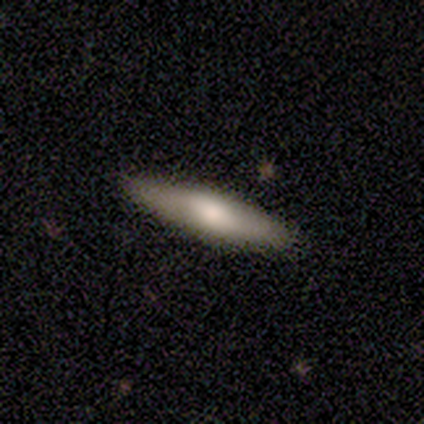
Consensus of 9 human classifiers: smooth_or_featured: smooth (p=0.56) [alt: featured or disk p=0.33]
how_rounded: cigar-shaped (p=0.80) [alt: in between p=0.20]
merging: none (p=1.00)